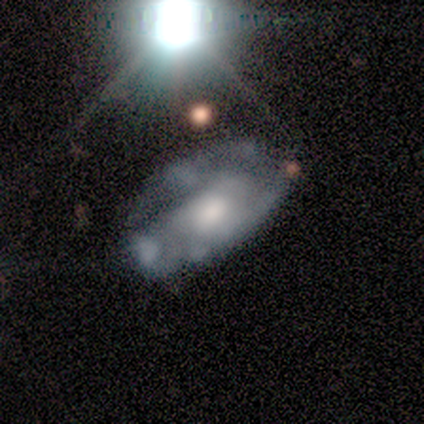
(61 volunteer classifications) Morphology: type=featured or disk (62%); edge-on=no (97%); bar=no (76%); spiral arms=yes (54%); winding=tight (40%, tied with medium); arm count=2 (40%); bulge=moderate (54%); merging=none (35%).